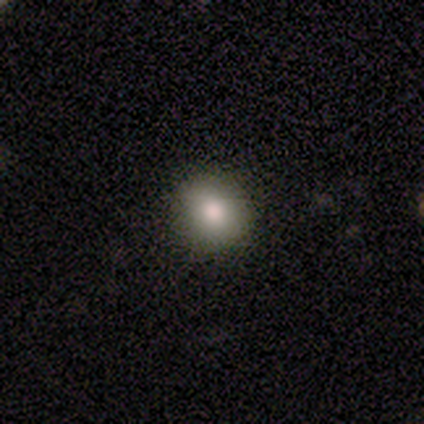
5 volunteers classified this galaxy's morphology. Smooth or featured? smooth (80%)
How rounded? round (100%)
Merging? none (100%)